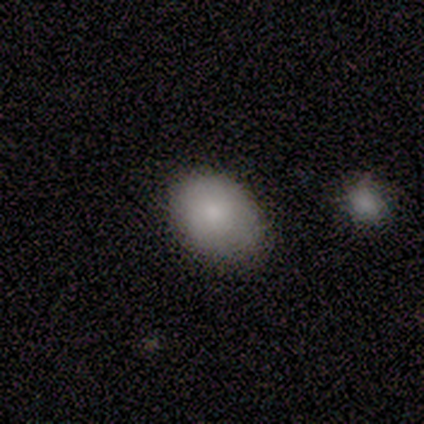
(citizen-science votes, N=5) Overall: smooth (80%). How rounded: round (75%). Merging: none (60%; minor disturbance 40%).